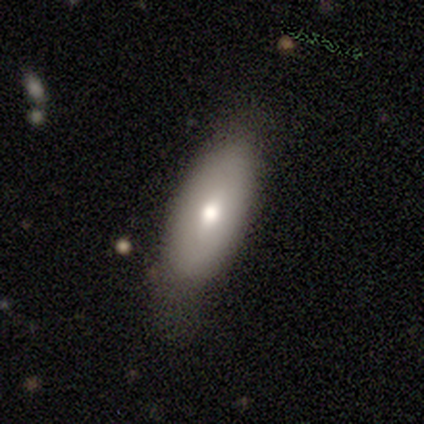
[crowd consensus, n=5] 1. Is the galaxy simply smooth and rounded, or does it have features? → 100% smooth, 0% featured or disk, 0% star or artifact.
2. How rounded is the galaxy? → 60% cigar-shaped, 40% in between, 0% round.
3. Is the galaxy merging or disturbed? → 60% none, 20% minor disturbance, 20% major disturbance, 0% merger.